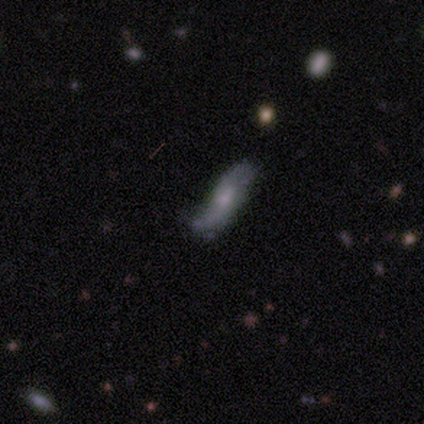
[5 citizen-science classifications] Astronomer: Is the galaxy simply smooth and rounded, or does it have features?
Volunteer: featured or disk — 60% (runner-up: smooth, 40%).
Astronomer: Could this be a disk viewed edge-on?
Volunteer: no — 100%.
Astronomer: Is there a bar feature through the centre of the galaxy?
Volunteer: no — 100%.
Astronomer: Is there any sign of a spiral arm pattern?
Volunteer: yes — 67%.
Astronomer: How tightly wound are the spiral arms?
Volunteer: medium — 50%, tied with loose at 50%.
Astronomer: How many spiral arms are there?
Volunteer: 2 — 100%.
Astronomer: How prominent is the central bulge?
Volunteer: small — 100%.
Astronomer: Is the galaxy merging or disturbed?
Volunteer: none — 60% (runner-up: minor disturbance, 40%).